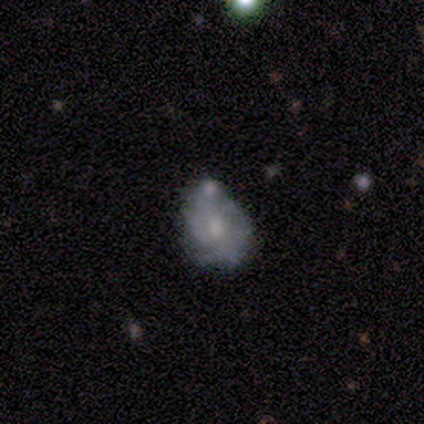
smooth-or-featured: featured or disk: 53% | smooth: 47% | star or artifact: 0%
  disk-edge-on: no: 100% | yes: 0%
    bar: no: 75% | weak: 25% | strong: 0%
    has-spiral-arms: no: 75% | yes: 25%
    bulge-size: small: 50% | moderate: 38% | none: 12% | dominant: 0% | large: 0%
  merging: none: 47% | major disturbance: 27% | minor disturbance: 13% | merger: 13%